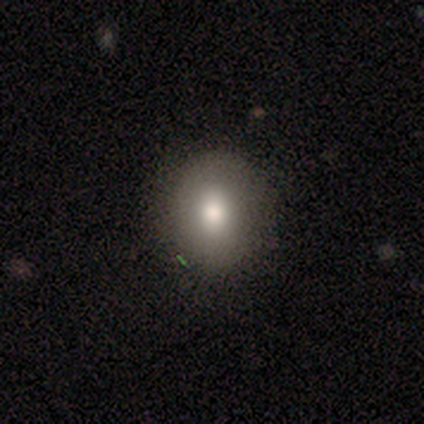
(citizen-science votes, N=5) Volunteers were most divided on "smooth or featured": smooth: 60%, featured or disk: 20%, star or artifact: 20%. More confident: how rounded — round (100%); merging — none (100%).